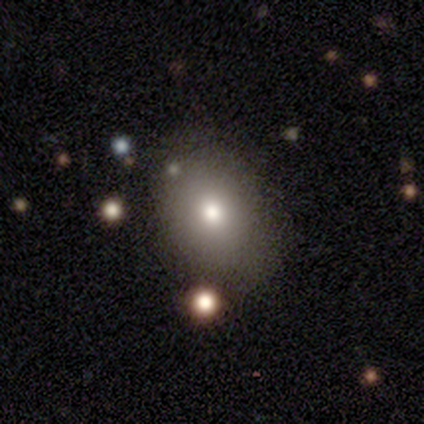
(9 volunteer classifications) Smooth or featured? smooth (67%)
How rounded? in between (67%)
Merging? none (88%)